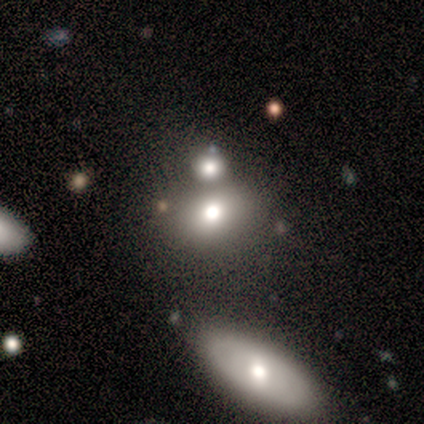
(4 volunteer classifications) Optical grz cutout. It shows a smooth galaxy with no disk features (100%) that is in between round and cigar-shaped (75%). Merging: none (25%, tied with minor disturbance, major disturbance and merger).